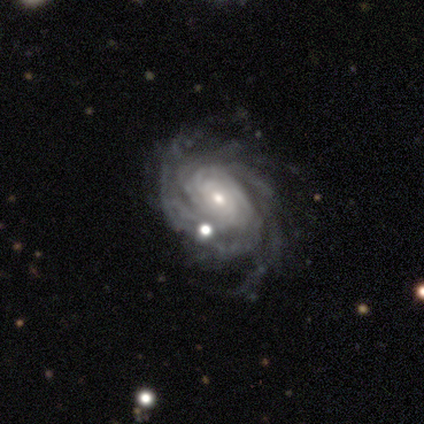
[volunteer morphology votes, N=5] Volunteers were most divided on "spiral arm count": more than 4: 50%, 3: 25%, can't tell: 25%, 1: 0%, 2: 0%, 4: 0%. More confident: edge-on disk — no (100%); bar — no (100%); spiral arms — yes (100%); spiral winding — tight (100%); smooth or featured — featured or disk (80%); bulge size — small (75%); merging — none (50%).